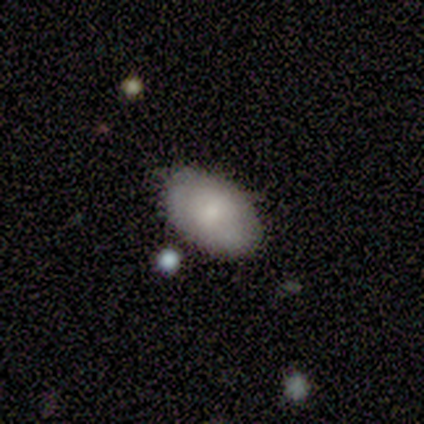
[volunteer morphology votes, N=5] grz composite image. It shows a smooth galaxy with no disk features (100%) that is in between round and cigar-shaped (80%). Merging: none (60%).